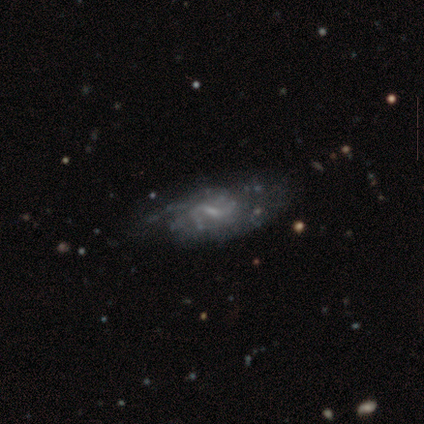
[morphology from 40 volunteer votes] Smooth or featured? featured or disk (90%)
Edge-on disk? no (97%)
Bar? weak (71%)
Spiral arms? yes (69%)
Spiral winding? medium (50%)
Spiral arm count? 2 (46%)
Bulge size? small (46%)
Merging? none (46%)